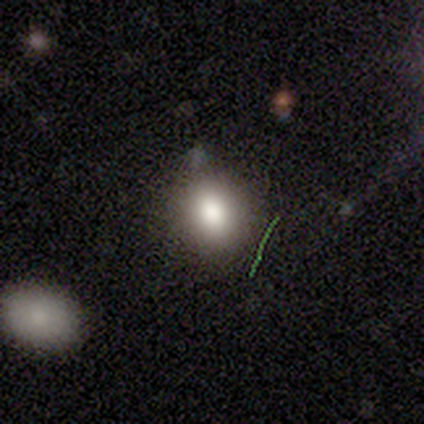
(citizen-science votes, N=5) A smooth galaxy with no disk features (80%) that is in between round and cigar-shaped (75%). Merging: none (50%, tied with minor disturbance).